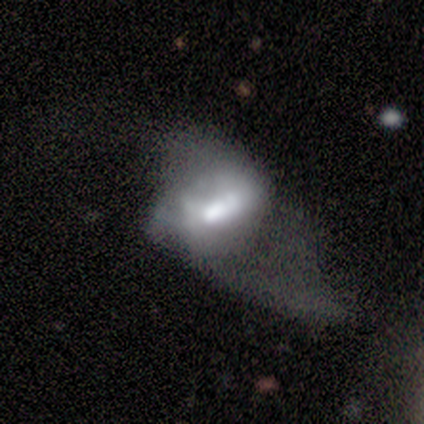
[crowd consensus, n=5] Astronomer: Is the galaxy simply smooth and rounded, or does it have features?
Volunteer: smooth — 80%.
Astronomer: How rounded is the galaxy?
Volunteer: in between — 100%.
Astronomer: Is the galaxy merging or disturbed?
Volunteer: major disturbance — 80%.